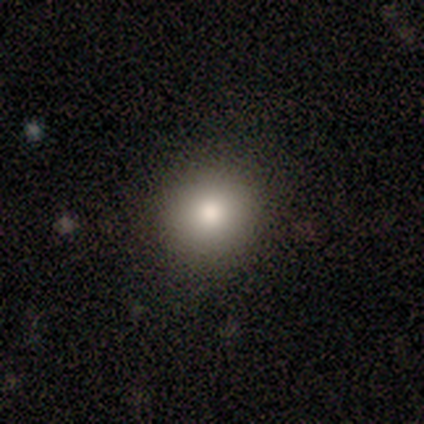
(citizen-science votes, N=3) Smooth or featured?
  - featured or disk: 67% *
  - smooth: 33%
  - star or artifact: 0%
Edge-on disk?
  - no: 100% *
  - yes: 0%
Bar?
  - strong: 50% * (tied)
  - no: 50% * (tied)
  - weak: 0%
Spiral arms?
  - yes: 50% * (tied)
  - no: 50% * (tied)
Spiral winding?
  - tight: 100% *
  - medium: 0%
  - loose: 0%
Spiral arm count?
  - more than 4: 100% *
  - 1: 0%
  - 2: 0%
  - 3: 0%
  - 4: 0%
  - can't tell: 0%
Bulge size?
  - dominant: 50% * (tied)
  - moderate: 50% * (tied)
  - large: 0%
  - small: 0%
  - none: 0%
Merging?
  - none: 67% *
  - merger: 33%
  - minor disturbance: 0%
  - major disturbance: 0%